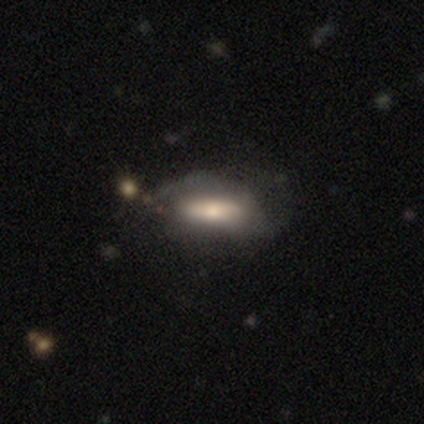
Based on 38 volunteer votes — Smooth or featured? 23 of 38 (61%) said smooth. How rounded? 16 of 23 (70%) said in between. Merging? 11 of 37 (30%) said none.